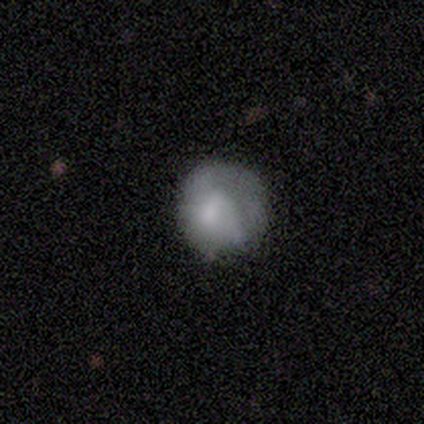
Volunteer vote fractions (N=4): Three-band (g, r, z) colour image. It shows a smooth galaxy with no disk features (75%) that is round (100%). Merging: none (50%, tied with minor disturbance).